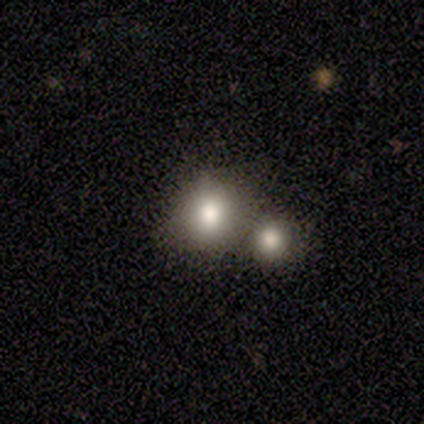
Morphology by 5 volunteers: type=smooth (80%); roundness=round (100%); merging=none (50%, tied with merger).